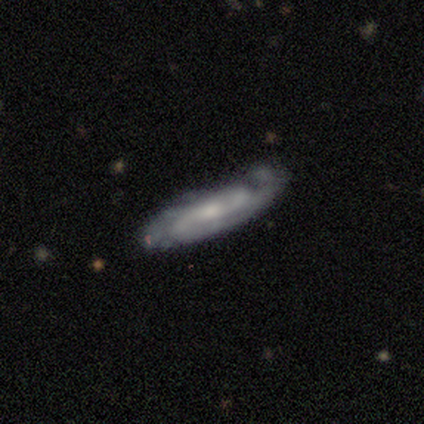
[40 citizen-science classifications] Volunteers were most divided on "bulge size": small: 46%, moderate: 43%, none: 11%, dominant: 0%, large: 0%. More confident: spiral arms — yes (93%); edge-on disk — no (85%); smooth or featured — featured or disk (82%); bar — no (68%); merging — none (61%); spiral arm count — 2 (58%); spiral winding — medium (54%).